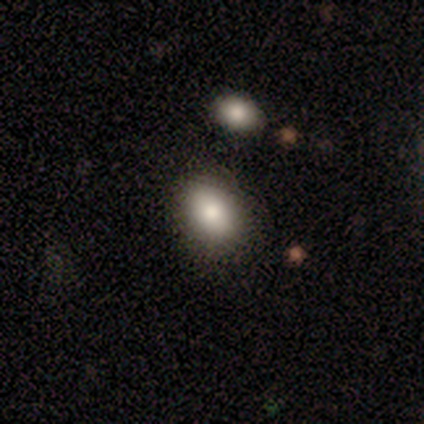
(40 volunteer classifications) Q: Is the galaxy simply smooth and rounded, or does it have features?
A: smooth — 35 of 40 (88%).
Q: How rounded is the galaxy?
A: in between — 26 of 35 (74%).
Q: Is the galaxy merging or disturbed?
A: none — 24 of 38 (63%).